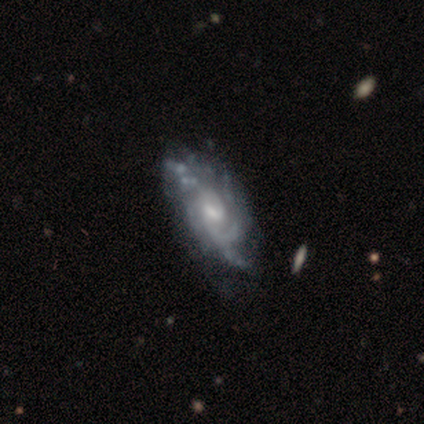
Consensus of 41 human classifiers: Smooth or featured: featured or disk — 90% (smooth — 5%)
Edge-on disk: no — 95% (yes — 5%)
Bar: weak — 69% (no — 29%)
Spiral arms: yes — 100%
Spiral winding: medium — 49% (tight — 34%)
Spiral arm count: can't tell — 54% (2 — 20%)
Bulge size: moderate — 60% (small — 26%)
Merging: none — 28% (minor disturbance — 21%)